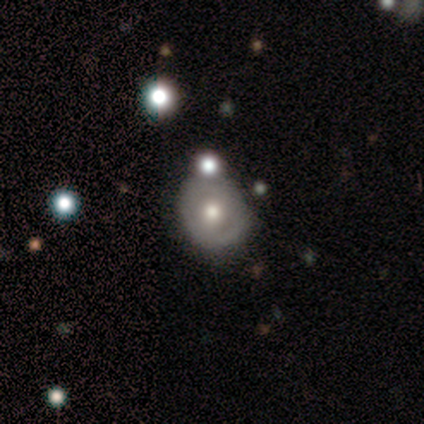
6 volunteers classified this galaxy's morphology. This is likely a featured or disk galaxy (67%). It is clearly not viewed edge-on (100%). Bar: likely no (75%). Spiral arm pattern: likely no (75%). Central bulge: likely moderate (75%). Merging: marginally none (40%, tied with minor disturbance).